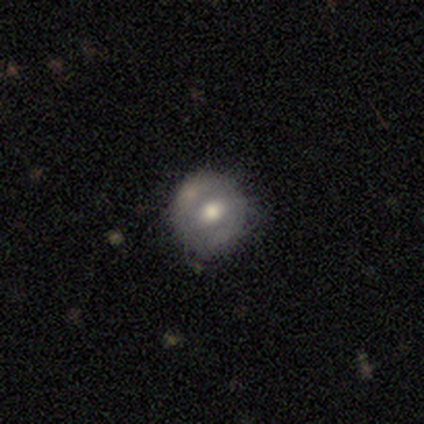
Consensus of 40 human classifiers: A featured or disk galaxy (52%) with no bar (57%), no spiral arms (76%) and a moderate central bulge (71%).

Vote fractions:
- Smooth or featured? featured or disk: 52% / smooth: 40% / star or artifact: 8%
- Edge-on disk? no: 100% / yes: 0%
- Bar? no: 57% / weak: 43% / strong: 0%
- Spiral arms? no: 76% / yes: 24%
- Bulge size? moderate: 71% / large: 14% / small: 14% / dominant: 0% / none: 0%
- Merging? none: 70% / minor disturbance: 22% / major disturbance: 5% / merger: 3%